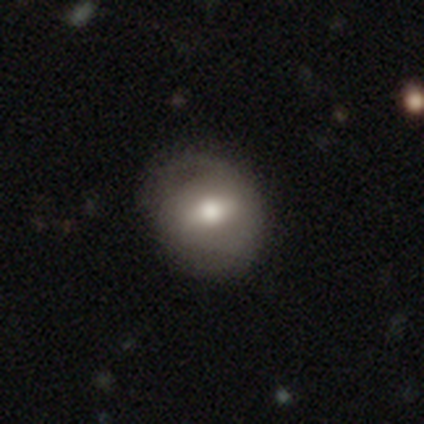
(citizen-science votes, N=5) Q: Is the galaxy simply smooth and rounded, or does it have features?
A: featured or disk — 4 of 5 (80%).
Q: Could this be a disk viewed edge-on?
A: no — 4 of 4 (100%).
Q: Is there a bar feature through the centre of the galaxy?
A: no — 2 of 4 (50%).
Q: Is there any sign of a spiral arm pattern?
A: yes — 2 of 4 (50%, tied with no).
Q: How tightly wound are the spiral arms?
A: loose — 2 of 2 (100%).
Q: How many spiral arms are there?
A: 2 — 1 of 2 (50%, tied with can't tell).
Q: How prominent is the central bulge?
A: large — 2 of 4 (50%, tied with moderate).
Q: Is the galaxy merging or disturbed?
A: none — 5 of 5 (100%).